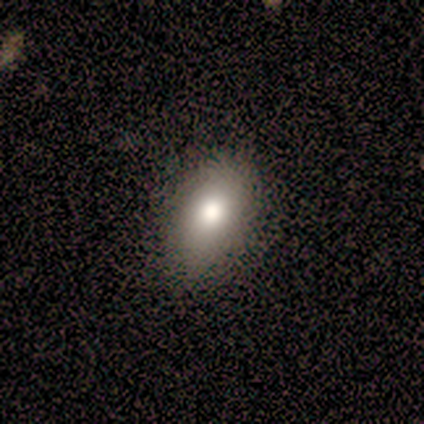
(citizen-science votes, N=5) smooth_or_featured: smooth (p=0.60) [alt: featured or disk p=0.20]
how_rounded: in between (p=0.67) [alt: round p=0.33]
merging: none (p=0.75) [alt: minor disturbance p=0.25]